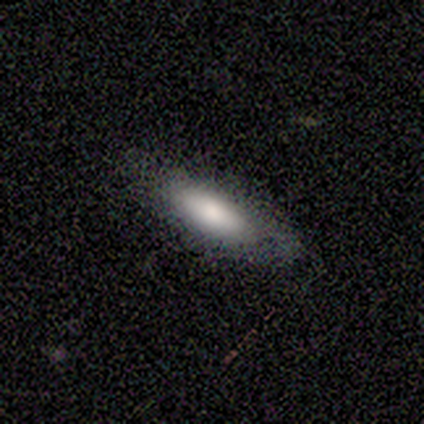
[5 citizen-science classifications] Smooth or featured? 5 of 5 (100%) said smooth. How rounded? 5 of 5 (100%) said cigar-shaped. Merging? 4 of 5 (80%) said none.